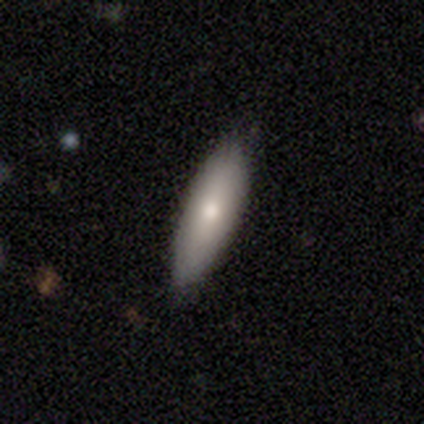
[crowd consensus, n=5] Smooth or featured?
  - featured or disk: 60% *
  - smooth: 40%
  - star or artifact: 0%
Edge-on disk?
  - yes: 67% *
  - no: 33%
Edge-on bulge?
  - rounded: 100% *
  - boxy: 0%
  - none: 0%
Merging?
  - none: 80% *
  - minor disturbance: 20%
  - major disturbance: 0%
  - merger: 0%